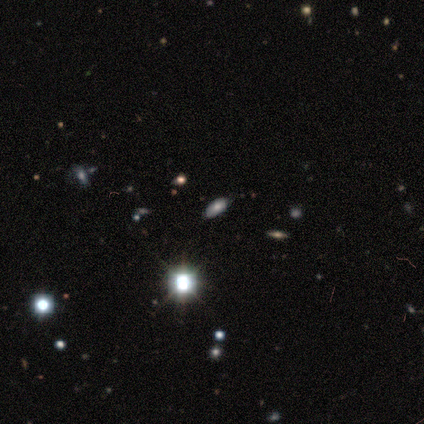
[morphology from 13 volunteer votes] Smooth or featured: smooth — 46% (star or artifact — 38%)
How rounded: in between — 83% (round — 17%)
Merging: none — 62% (minor disturbance — 12%)